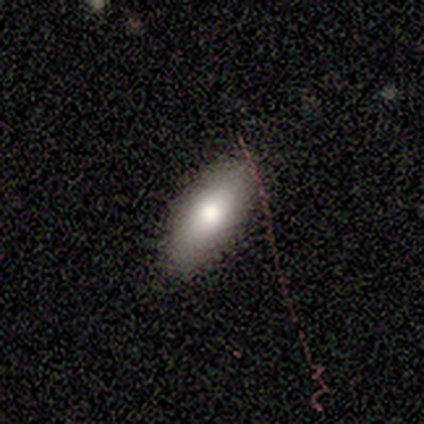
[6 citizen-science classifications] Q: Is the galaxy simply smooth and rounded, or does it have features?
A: smooth — 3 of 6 (50%, tied with featured or disk).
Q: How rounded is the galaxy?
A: cigar-shaped — 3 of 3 (100%).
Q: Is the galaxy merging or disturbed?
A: none — 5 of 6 (83%).